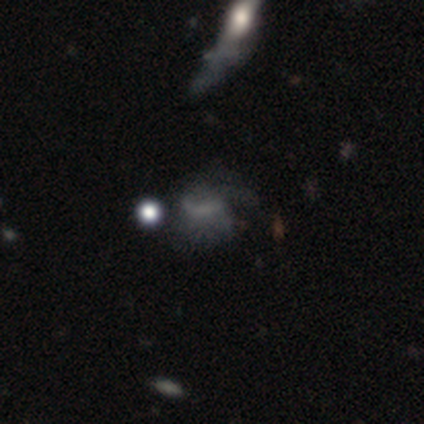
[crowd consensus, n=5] smooth_or_featured: featured or disk (p=0.80) [alt: star or artifact p=0.20]
disk_edge_on: no (p=1.00)
bar: weak (p=0.75) [alt: no p=0.25]
has_spiral_arms: yes (p=0.75) [alt: no p=0.25]
spiral_winding: medium (p=0.67) [alt: loose p=0.33]
spiral_arm_count: can't tell (p=0.67) [alt: 2 p=0.33]
bulge_size: moderate (p=0.50) [tied with: none p=0.50]
merging: major disturbance (p=0.50) [alt: minor disturbance p=0.25]